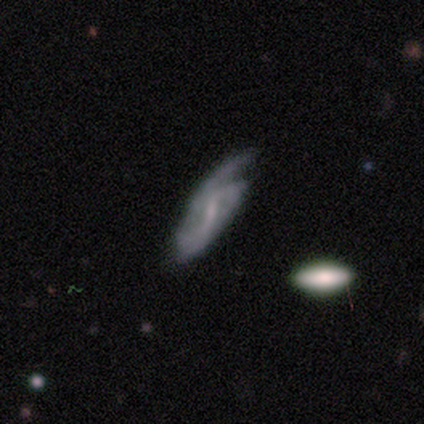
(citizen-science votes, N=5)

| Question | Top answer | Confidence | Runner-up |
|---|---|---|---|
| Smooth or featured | smooth | 60% | featured or disk (40%) |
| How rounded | in between | 67% | round (33%) |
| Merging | none | 40% | tied: minor disturbance (40%) |